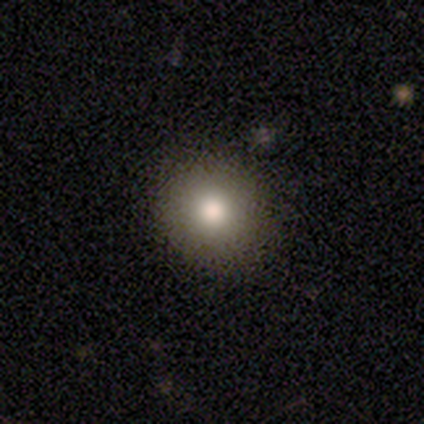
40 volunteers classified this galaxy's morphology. Q: Smooth or featured?
A: smooth (82%); runner-up: featured or disk (12%)
Q: How rounded?
A: round (88%); runner-up: in between (9%)
Q: Merging?
A: none (82%); runner-up: minor disturbance (13%)